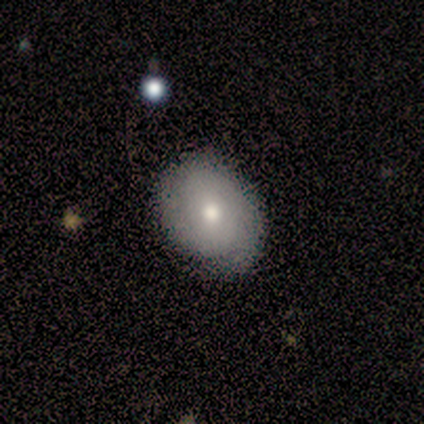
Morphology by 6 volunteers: Q: Smooth or featured?
A: smooth (83%); runner-up: featured or disk (17%)
Q: How rounded?
A: round (60%); runner-up: in between (40%)
Q: Merging?
A: none (50%); runner-up: minor disturbance (33%)